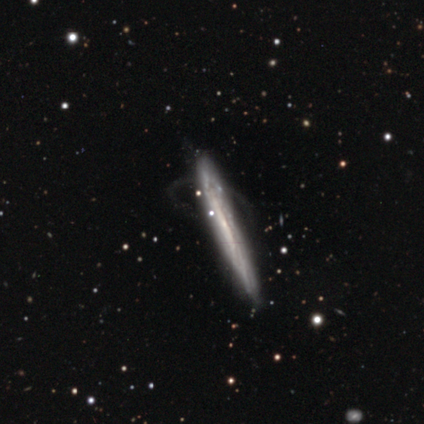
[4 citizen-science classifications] Volunteers were most divided on "edge-on disk": yes: 67%, no: 33%. More confident: edge-on bulge — none (100%); smooth or featured — featured or disk (75%); merging — none (75%).